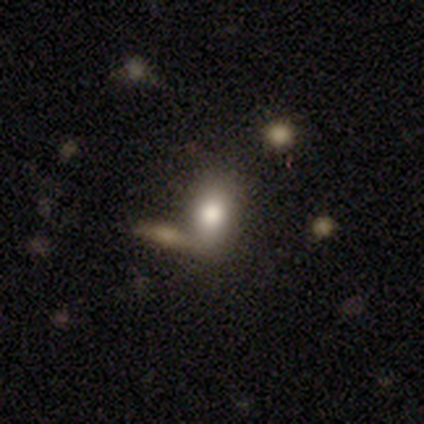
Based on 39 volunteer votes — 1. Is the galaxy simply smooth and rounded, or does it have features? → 77% smooth, 18% featured or disk, 5% star or artifact.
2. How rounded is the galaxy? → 80% in between, 17% round, 3% cigar-shaped.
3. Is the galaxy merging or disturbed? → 62% none, 22% merger, 11% minor disturbance, 5% major disturbance.